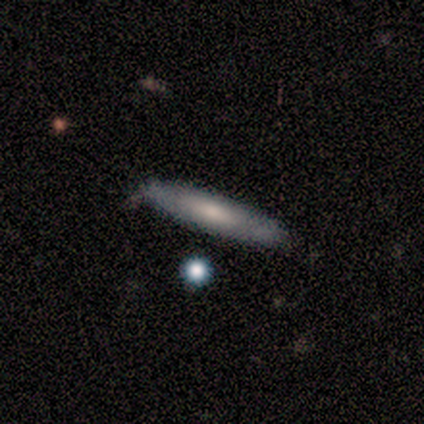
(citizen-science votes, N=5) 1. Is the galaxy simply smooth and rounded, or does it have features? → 60% featured or disk, 40% smooth, 0% star or artifact.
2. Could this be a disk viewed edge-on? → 67% yes, 33% no.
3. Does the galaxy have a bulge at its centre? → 50% none (tied), 50% rounded (tied), 0% boxy.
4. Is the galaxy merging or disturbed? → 100% none, 0% minor disturbance, 0% major disturbance, 0% merger.